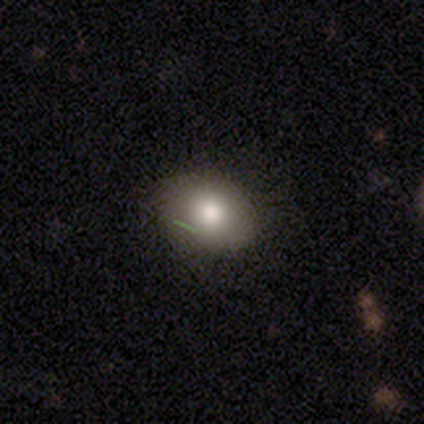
smooth-or-featured: smooth: 50% | star or artifact: 33% | featured or disk: 17%
  how-rounded: in between: 67% | round: 33% | cigar-shaped: 0%
  merging: none: 100% | minor disturbance: 0% | major disturbance: 0% | merger: 0%